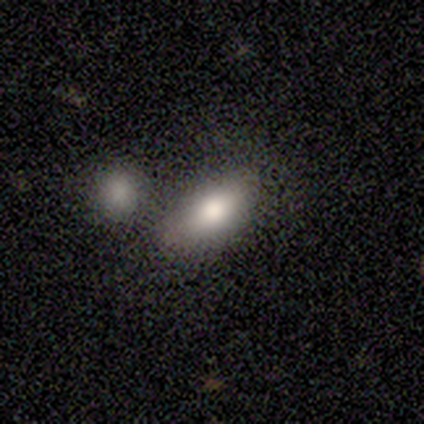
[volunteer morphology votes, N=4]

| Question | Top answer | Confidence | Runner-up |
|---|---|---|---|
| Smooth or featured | smooth | 100% | — |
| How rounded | in between | 75% | cigar-shaped (25%) |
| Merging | none | 50% | major disturbance (25%) |